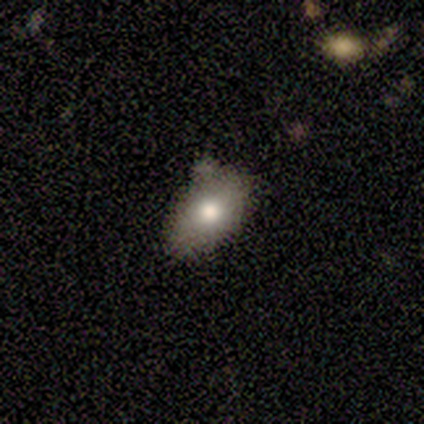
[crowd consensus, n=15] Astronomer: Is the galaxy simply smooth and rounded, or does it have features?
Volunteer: smooth — 73%.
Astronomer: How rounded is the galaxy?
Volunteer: in between — 100%.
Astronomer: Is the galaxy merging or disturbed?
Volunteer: none — 71%.